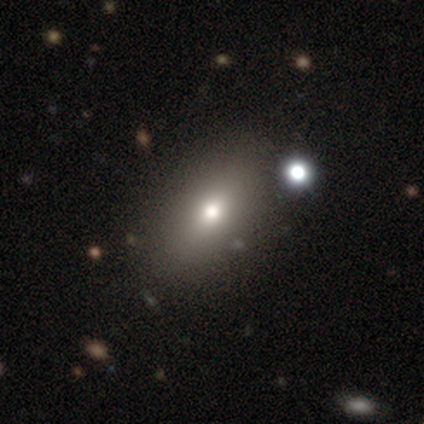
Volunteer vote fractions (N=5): Q: Smooth or featured?
A: smooth (60%); runner-up: featured or disk (40%)
Q: How rounded?
A: in between (100%)
Q: Merging?
A: none (80%); runner-up: merger (20%)